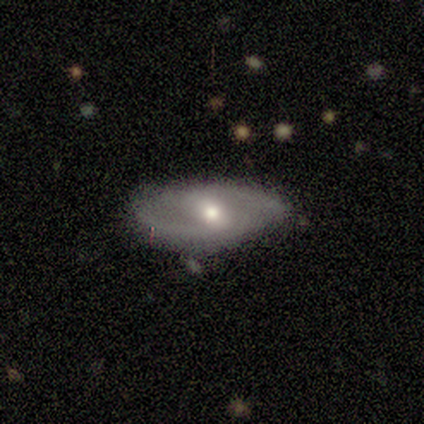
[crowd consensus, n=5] A smooth galaxy with no disk features (60%) that is in between round and cigar-shaped (67%). Merging: none (80%).